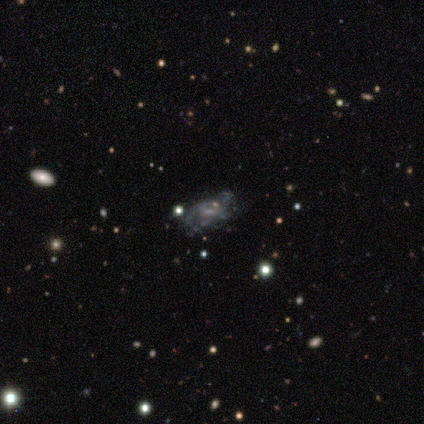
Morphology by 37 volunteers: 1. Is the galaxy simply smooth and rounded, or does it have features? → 62% featured or disk, 19% smooth, 19% star or artifact.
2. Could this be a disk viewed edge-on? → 100% no, 0% yes.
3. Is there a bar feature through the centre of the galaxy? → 48% no, 43% weak, 9% strong.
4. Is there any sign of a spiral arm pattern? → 57% no, 43% yes.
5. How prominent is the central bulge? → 61% none, 30% small, 9% moderate, 0% dominant, 0% large.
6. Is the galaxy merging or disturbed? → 47% none, 23% minor disturbance, 23% major disturbance, 7% merger.